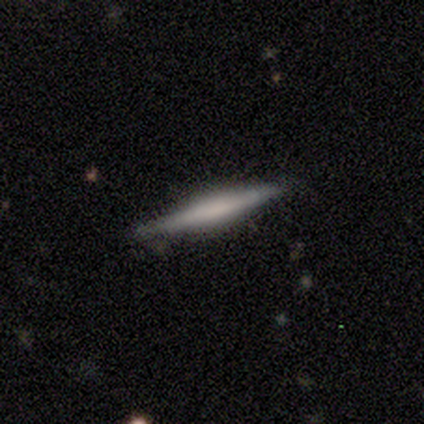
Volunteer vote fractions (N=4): Morphology: type=smooth (50%, tied with featured or disk); roundness=round (50%, tied with cigar-shaped); merging=none (75%).